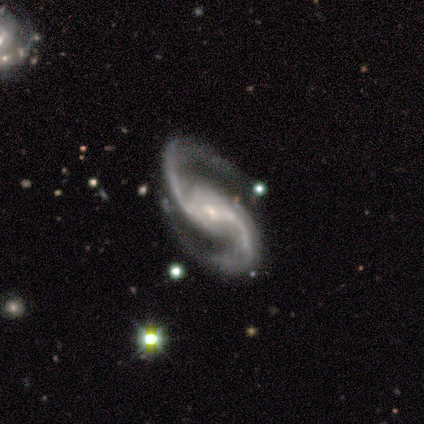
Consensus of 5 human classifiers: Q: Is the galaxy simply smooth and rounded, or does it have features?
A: featured or disk — 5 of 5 (100%).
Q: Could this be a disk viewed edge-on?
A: no — 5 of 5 (100%).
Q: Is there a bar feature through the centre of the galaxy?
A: no — 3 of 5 (60%).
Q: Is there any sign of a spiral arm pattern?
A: yes — 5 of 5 (100%).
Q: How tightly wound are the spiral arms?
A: loose — 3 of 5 (60%).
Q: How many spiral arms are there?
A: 2 — 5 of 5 (100%).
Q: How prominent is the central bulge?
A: small — 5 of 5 (100%).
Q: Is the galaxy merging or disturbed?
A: none — 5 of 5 (100%).